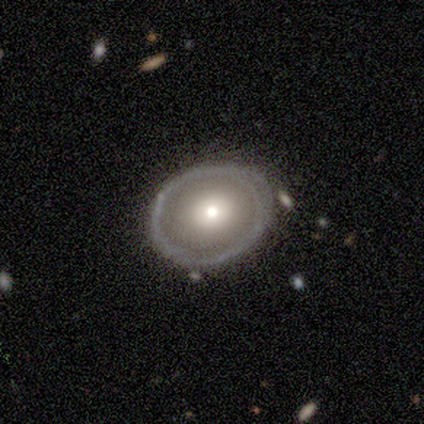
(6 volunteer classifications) smooth_or_featured: featured or disk (p=0.67) [alt: smooth p=0.17]
disk_edge_on: no (p=1.00)
bar: no (p=1.00)
has_spiral_arms: no (p=1.00)
bulge_size: small (p=0.50) [alt: dominant p=0.25]
merging: none (p=1.00)